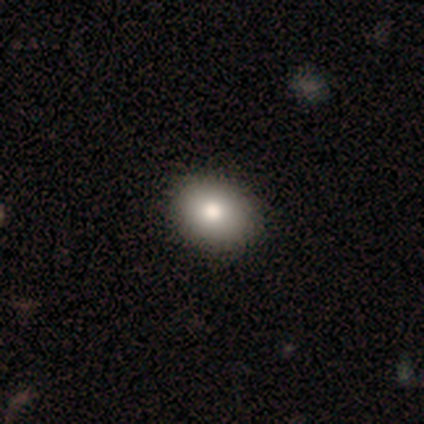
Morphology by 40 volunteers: This appears to be a smooth galaxy with no disk features (80%) that is in between round and cigar-shaped (62%). Merging: none (56%).